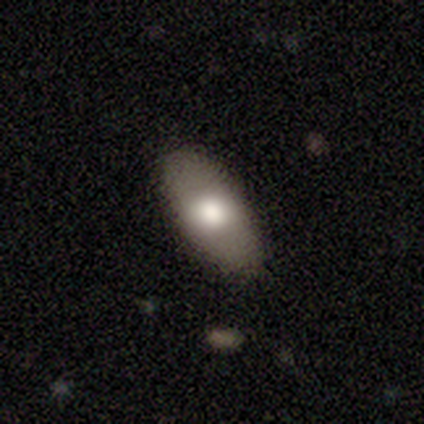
A smooth galaxy with no disk features (60%) that is in between round and cigar-shaped (83%).

Vote fractions:
- Smooth or featured? smooth: 60% / featured or disk: 40% / star or artifact: 0%
- How rounded? in between: 83% / round: 17% / cigar-shaped: 0%
- Merging? none: 85% / major disturbance: 10% / minor disturbance: 5% / merger: 0%